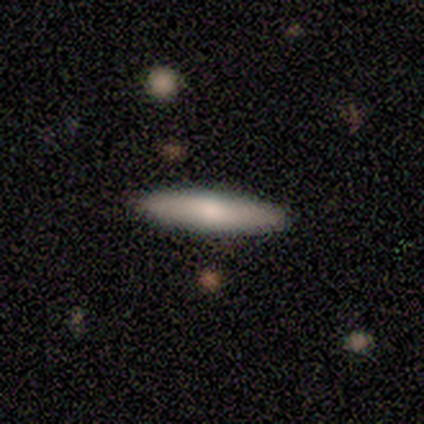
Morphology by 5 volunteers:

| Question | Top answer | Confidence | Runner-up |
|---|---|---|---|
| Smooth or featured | smooth | 80% | featured or disk (20%) |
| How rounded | cigar-shaped | 75% | round (25%) |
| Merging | none | 80% | major disturbance (20%) |